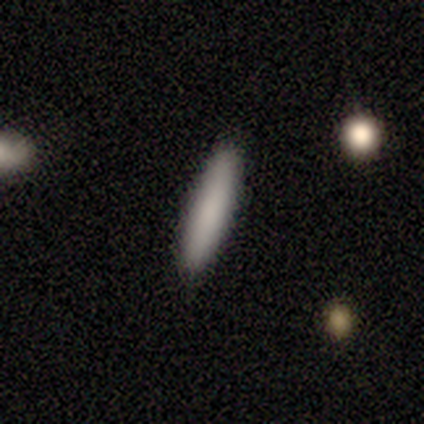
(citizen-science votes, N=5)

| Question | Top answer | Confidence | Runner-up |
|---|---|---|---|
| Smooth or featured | smooth | 100% | — |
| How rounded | cigar-shaped | 60% | in between (40%) |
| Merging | none | 100% | — |